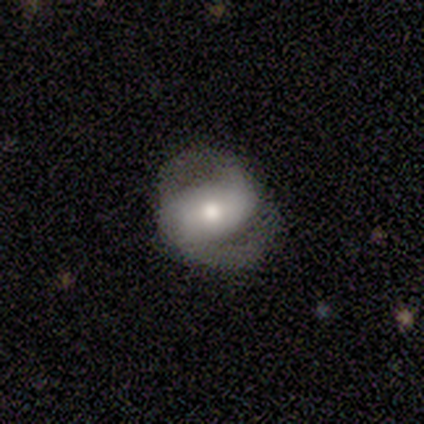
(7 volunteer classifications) smooth_or_featured: featured or disk (p=0.71) [alt: smooth p=0.29]
disk_edge_on: no (p=0.80) [alt: yes p=0.20]
bar: strong (p=0.50) [alt: weak p=0.25]
has_spiral_arms: yes (p=1.00)
spiral_winding: tight (p=0.50) [tied with: medium p=0.50]
spiral_arm_count: 2 (p=1.00)
bulge_size: moderate (p=0.50) [alt: large p=0.25]
merging: none (p=0.86) [alt: minor disturbance p=0.14]